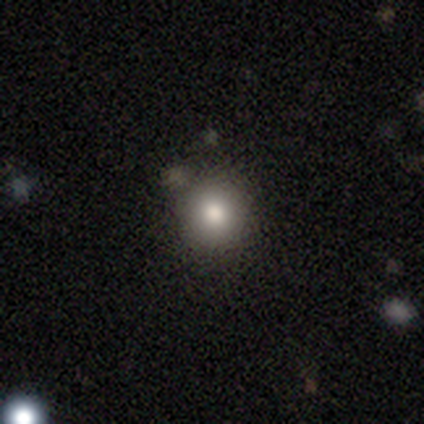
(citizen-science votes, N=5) Smooth or featured? smooth (100%)
How rounded? round (100%)
Merging? none (100%)